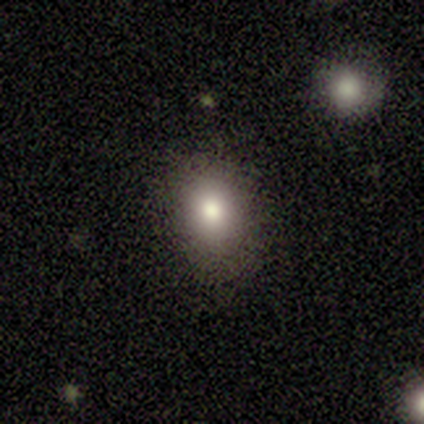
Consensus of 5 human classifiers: Morphology: type=smooth (100%); roundness=in between (80%); merging=none (100%).